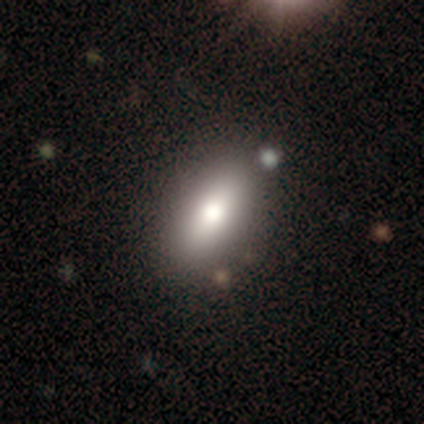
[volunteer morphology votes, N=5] Smooth or featured? smooth (100%)
How rounded? in between (100%)
Merging? none (80%)